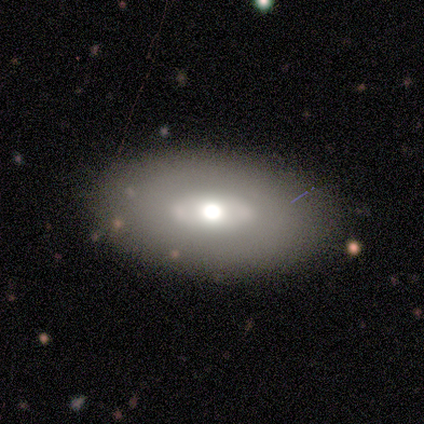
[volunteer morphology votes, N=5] Smooth or featured? 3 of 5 (60%) said featured or disk. Edge-on disk? 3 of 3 (100%) said no. Bar? 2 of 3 (67%) said no. Spiral arms? 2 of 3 (67%) said no. Bulge size? 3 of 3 (100%) said moderate. Merging? 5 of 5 (100%) said none.